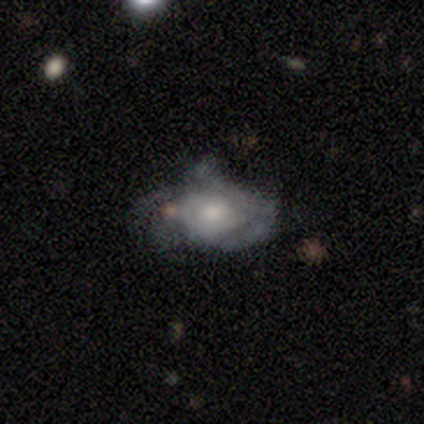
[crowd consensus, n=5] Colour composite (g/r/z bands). It shows a featured or disk galaxy (60%) with no bar (100%), medium (100%) spiral arms (100%) and a moderate central bulge (67%). Merging: major disturbance (60%).